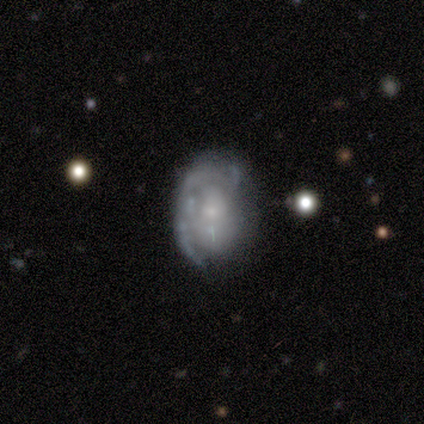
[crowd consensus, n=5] A featured or disk galaxy (60%) with no bar (100%), 1 (33%, tied with 2 and can't tell) medium (67%) spiral arms (100%) and a small central bulge (67%).

Vote fractions:
- Smooth or featured? featured or disk: 60% / smooth: 20% / star or artifact: 20%
- Edge-on disk? no: 100% / yes: 0%
- Bar? no: 100% / strong: 0% / weak: 0%
- Spiral arms? yes: 100% / no: 0%
- Spiral winding? medium: 67% / loose: 33% / tight: 0%
- Spiral arm count? 1: 33% (tied) / 2: 33% (tied) / can't tell: 33% (tied) / 3: 0% / 4: 0% / more than 4: 0%
- Bulge size? small: 67% / moderate: 33% / dominant: 0% / large: 0% / none: 0%
- Merging? none: 75% / minor disturbance: 25% / major disturbance: 0% / merger: 0%